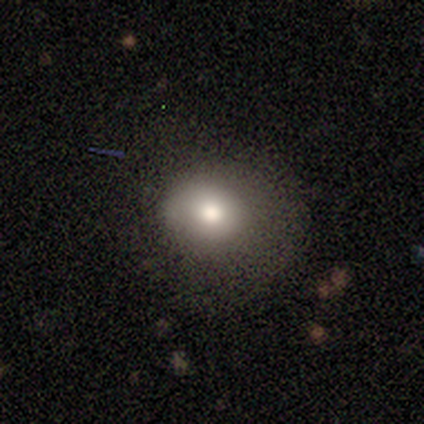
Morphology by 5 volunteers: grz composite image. It shows a smooth galaxy with no disk features (100%) that is round (60%). Merging: none (80%).